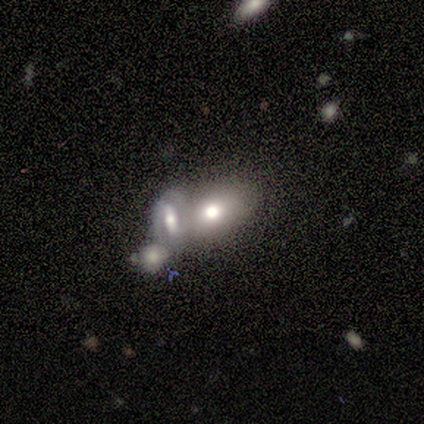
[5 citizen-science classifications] Smooth or featured? smooth (60%)
How rounded? in between (100%)
Merging? merger (60%)